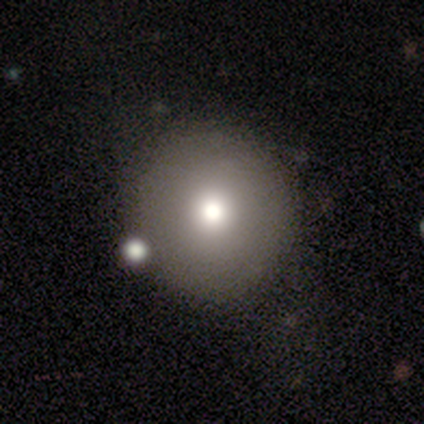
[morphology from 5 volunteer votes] Smooth or featured? 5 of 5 (100%) said smooth. How rounded? 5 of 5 (100%) said round. Merging? 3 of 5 (60%) said none.